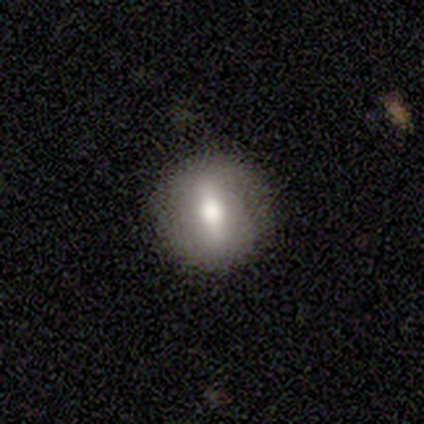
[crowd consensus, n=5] This is likely a featured or disk galaxy (60%). It is clearly not viewed edge-on (100%). Bar: clearly strong (100%). Spiral arm pattern: likely no (67%). Central bulge: clearly moderate (100%). Merging: clearly none (100%).